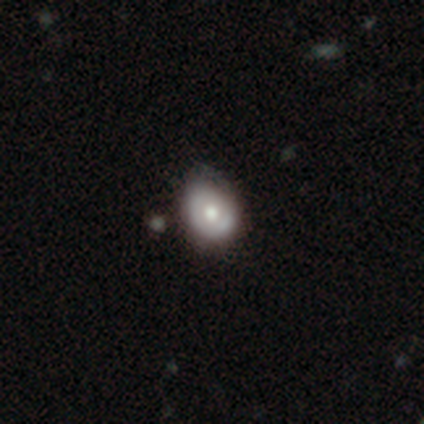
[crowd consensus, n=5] Smooth or featured: smooth — 60% (featured or disk — 40%)
How rounded: in between — 67% (round — 33%)
Merging: none — 40% (tied with minor disturbance — 40%)